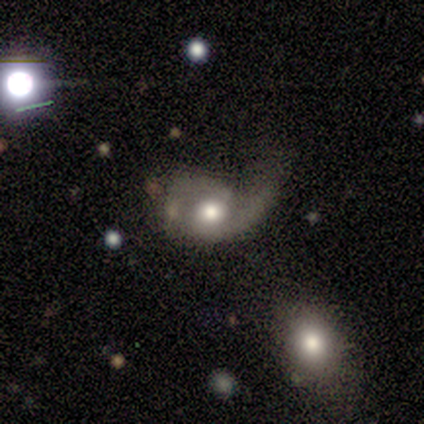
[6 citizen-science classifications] Morphology: type=featured or disk (83%); edge-on=no (100%); bar=no (80%); spiral arms=yes (100%); winding=medium (60%); arm count=2 (60%); bulge=moderate (80%); merging=none (33%, tied with minor disturbance and major disturbance).